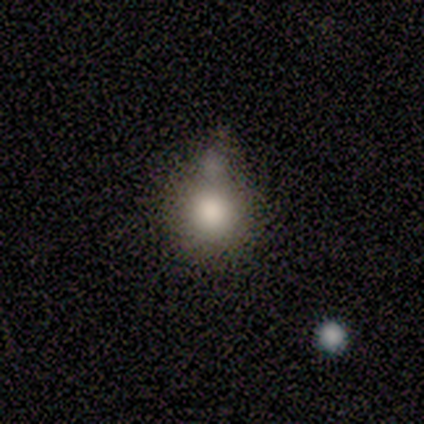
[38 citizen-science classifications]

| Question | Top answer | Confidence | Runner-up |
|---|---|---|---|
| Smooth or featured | smooth | 82% | featured or disk (13%) |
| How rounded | round | 87% | in between (13%) |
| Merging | merger | 31% | none (28%) |